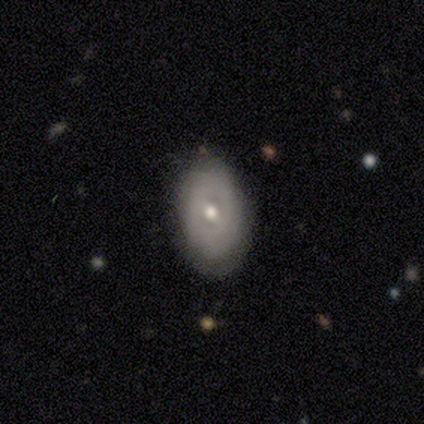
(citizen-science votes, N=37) featured or disk 62%, smooth 35%, star or artifact 3%. Down the decision tree: edge-on disk — no (91%); bar — no (57%); spiral arms — no (81%); bulge size — moderate (86%); merging — none (75%).